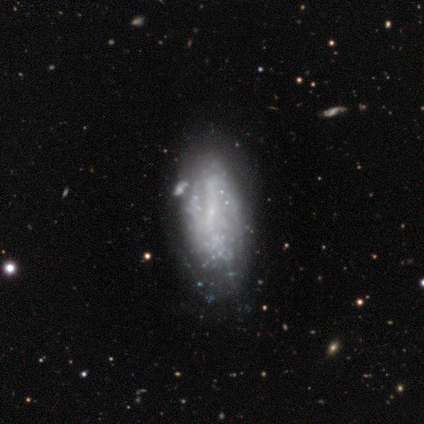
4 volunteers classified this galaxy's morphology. featured or disk 75%, star or artifact 25%, smooth 0%. Down the decision tree: edge-on disk — no (100%); bar — strong (33%, tied with weak and no); spiral arms — no (67%); bulge size — small (67%); merging — none (100%).